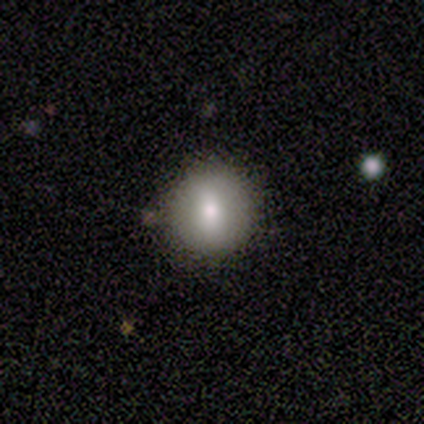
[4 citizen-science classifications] This appears to be a smooth galaxy with no disk features (75%) that is round (100%). Merging: none (100%).